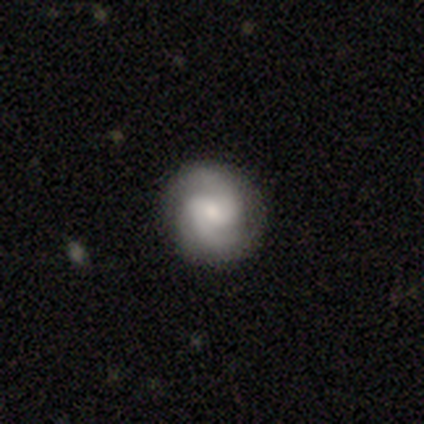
This is likely a featured or disk galaxy (72%). It is clearly not viewed edge-on (100%). Bar: marginally weak (45%). Spiral arm pattern: clearly yes (97%). Spiral arm count: clearly 2 (93%). Spiral winding: possibly medium (50%). Central bulge: marginally small (38%). Merging: clearly none (92%).